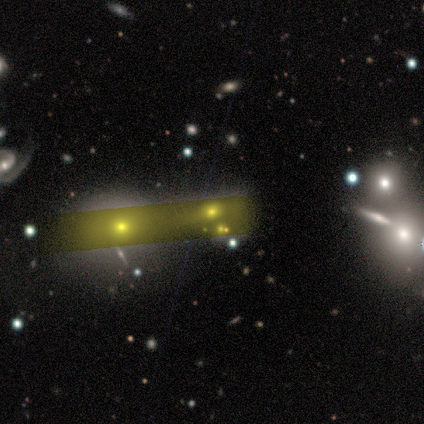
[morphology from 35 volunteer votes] type=star or artifact (51%).